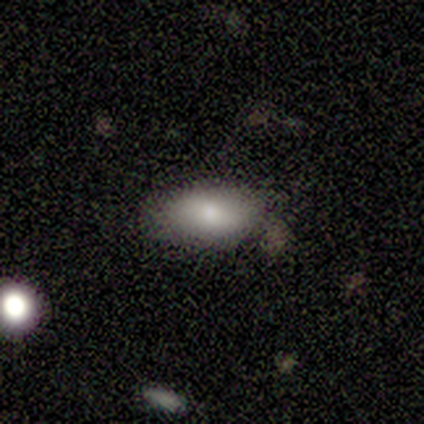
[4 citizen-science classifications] smooth_or_featured: smooth (p=0.75) [alt: star or artifact p=0.25]
how_rounded: in between (p=1.00)
merging: none (p=0.67) [alt: minor disturbance p=0.33]